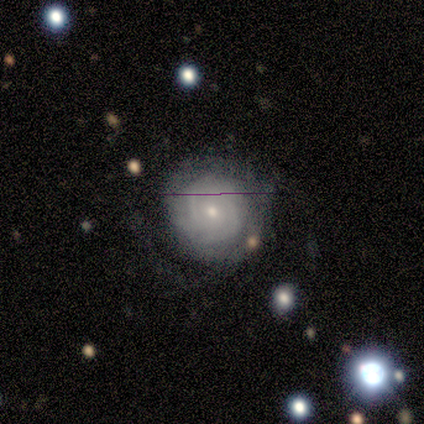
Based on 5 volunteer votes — Overall: featured or disk (60%; smooth 40%). Edge-on disk: no (100%). Bar: weak (67%; no 33%). Spiral arms: yes (100%). Spiral arm count: can't tell (67%; 2 33%). Spiral winding: tight (67%; loose 33%). Bulge size: small (100%). Merging: none (80%).